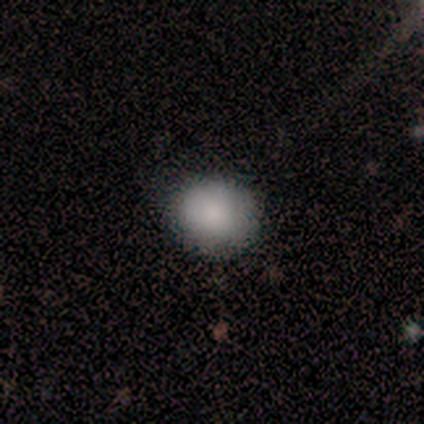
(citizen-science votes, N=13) Smooth or featured?
  - smooth: 92% *
  - star or artifact: 8%
  - featured or disk: 0%
How rounded?
  - round: 67% *
  - in between: 33%
  - cigar-shaped: 0%
Merging?
  - none: 75% *
  - minor disturbance: 25%
  - major disturbance: 0%
  - merger: 0%